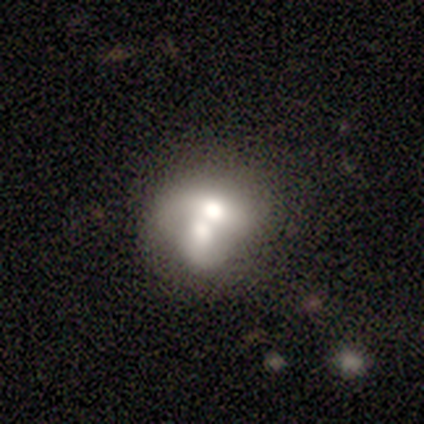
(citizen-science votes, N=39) Overall: smooth (49%; featured or disk 46%). How rounded: round (58%; in between 42%). Merging: merger (73%).